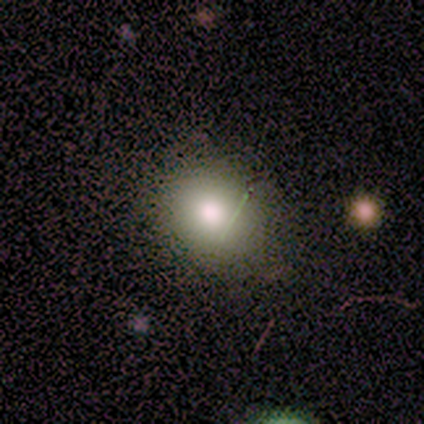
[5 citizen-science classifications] This is likely a smooth galaxy (60%). How rounded: likely round (67%). Merging: clearly none (100%).